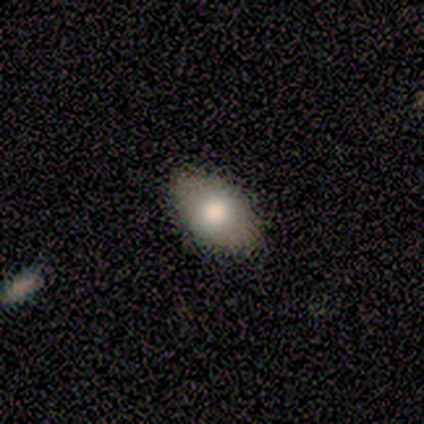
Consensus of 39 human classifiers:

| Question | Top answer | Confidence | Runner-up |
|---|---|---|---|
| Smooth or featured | smooth | 79% | featured or disk (18%) |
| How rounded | in between | 94% | round (6%) |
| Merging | none | 63% | minor disturbance (5%) |